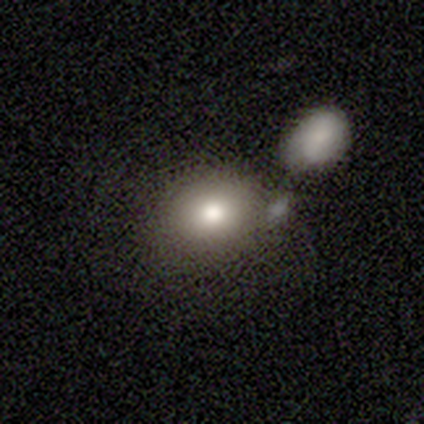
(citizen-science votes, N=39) A smooth galaxy with no disk features (82%) that is round (50%, tied with in between). Merging: none (58%).